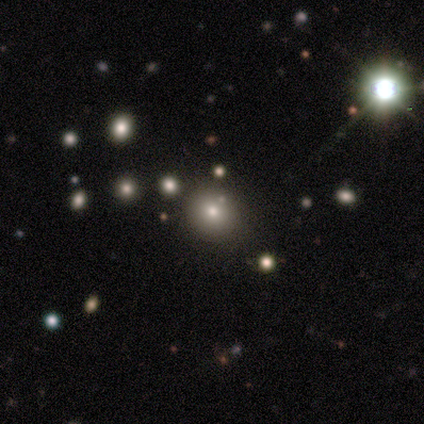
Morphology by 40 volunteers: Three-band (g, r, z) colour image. It shows a smooth galaxy with no disk features (52%) that is round (90%). Merging: none (93%).